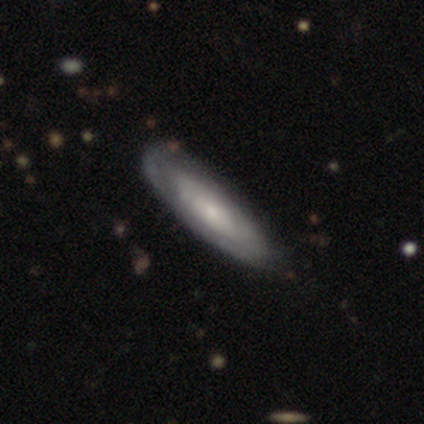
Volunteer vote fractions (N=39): This is clearly a featured or disk galaxy (82%). It is clearly not viewed edge-on (81%). Bar: likely no (77%). Spiral arm pattern: likely yes (65%). Spiral arm count: likely can't tell (76%). Spiral winding: possibly tight (53%). Central bulge: likely small (62%). Merging: possibly none (51%).